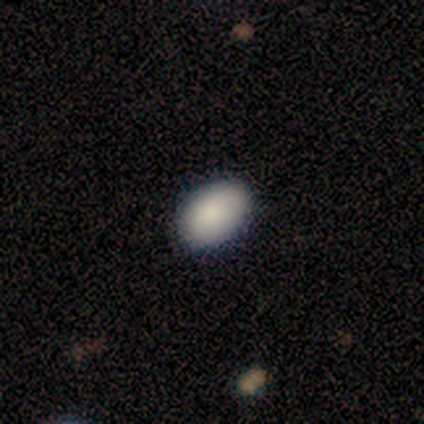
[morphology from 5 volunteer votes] Smooth or featured: smooth — 100%
How rounded: in between — 60% (round — 40%)
Merging: none — 80% (minor disturbance — 20%)